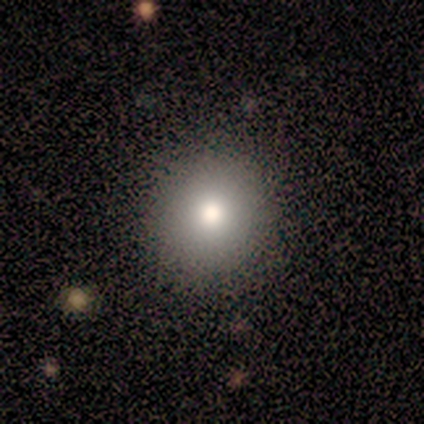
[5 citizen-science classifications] Smooth or featured: smooth — 60% (featured or disk — 20%)
How rounded: round — 100%
Merging: none — 100%